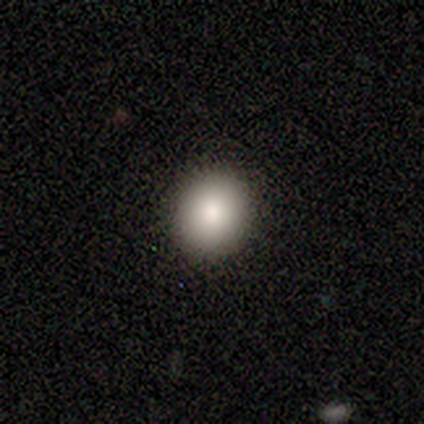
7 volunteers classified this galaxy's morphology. Volunteers were most divided on "how rounded": round: 86%, in between: 14%, cigar-shaped: 0%. More confident: smooth or featured — smooth (100%); merging — none (100%).